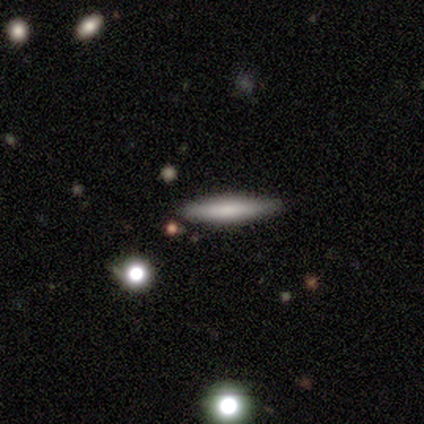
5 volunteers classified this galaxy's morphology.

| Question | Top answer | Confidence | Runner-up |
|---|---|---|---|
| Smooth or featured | smooth | 60% | featured or disk (20%) |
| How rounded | cigar-shaped | 100% | — |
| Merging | none | 100% | — |